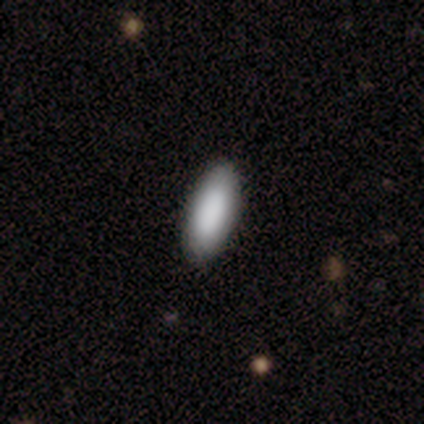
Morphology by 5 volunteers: Smooth or featured? 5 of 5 (100%) said smooth. How rounded? 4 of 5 (80%) said in between. Merging? 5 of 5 (100%) said none.